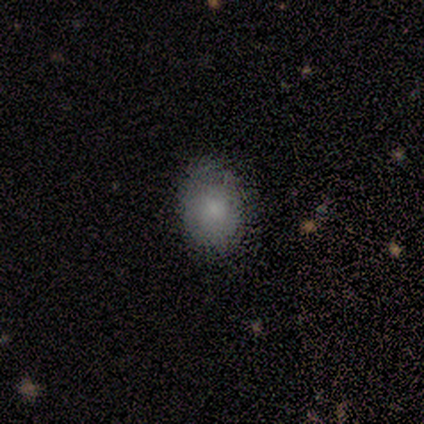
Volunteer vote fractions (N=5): Q: Smooth or featured?
A: smooth (100%)
Q: How rounded?
A: in between (80%); runner-up: round (20%)
Q: Merging?
A: none (80%); runner-up: minor disturbance (20%)